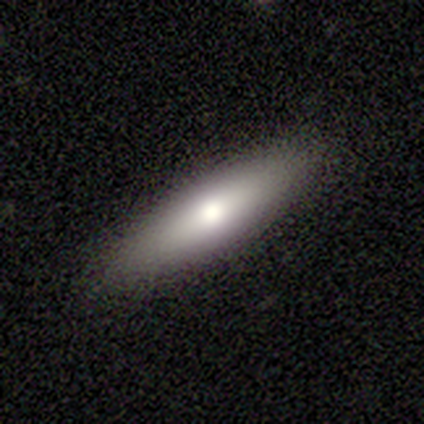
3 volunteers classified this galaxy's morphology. Smooth or featured? smooth (67%)
How rounded? cigar-shaped (100%)
Merging? none (100%)